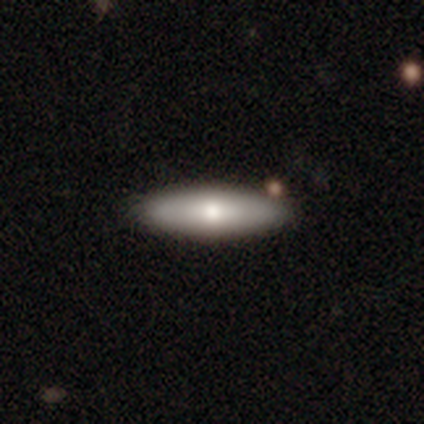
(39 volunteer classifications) A smooth galaxy with no disk features (59%) that is cigar-shaped (52%). Merging: none (97%).